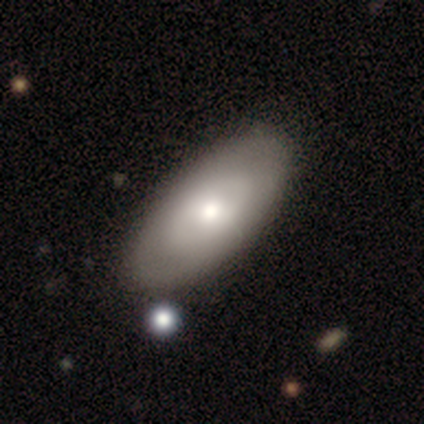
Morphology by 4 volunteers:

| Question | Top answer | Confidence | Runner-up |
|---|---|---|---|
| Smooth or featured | star or artifact | 50% | smooth (25%) |